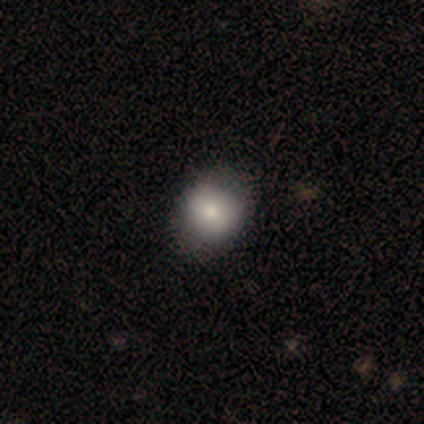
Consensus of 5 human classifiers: Morphology: type=smooth (100%); roundness=round (60%); merging=none (80%).